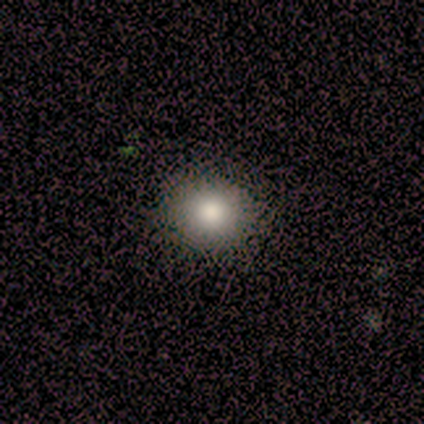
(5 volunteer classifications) Morphology: type=smooth (40%, tied with star or artifact); roundness=round (100%); merging=none (100%).